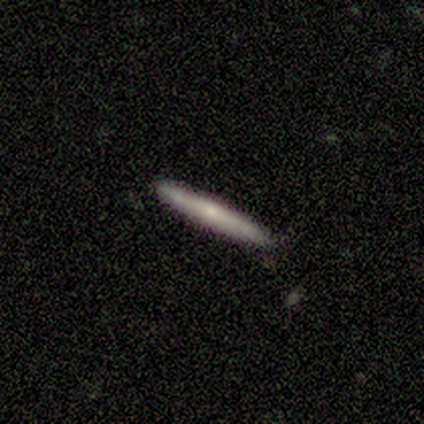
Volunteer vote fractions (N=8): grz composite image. It shows a featured or disk galaxy (62%) viewed edge-on (100%) with no central bulge (80%). Merging: none (62%).